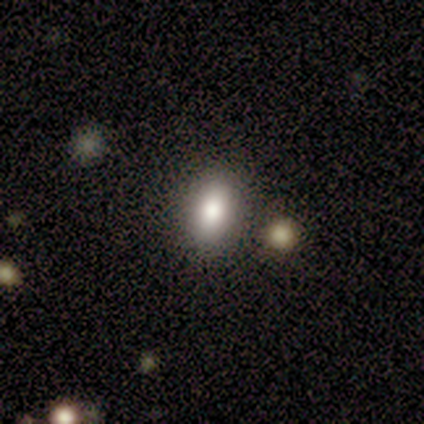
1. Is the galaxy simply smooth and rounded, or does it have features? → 71% smooth, 21% star or artifact, 7% featured or disk.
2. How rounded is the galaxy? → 100% in between, 0% round, 0% cigar-shaped.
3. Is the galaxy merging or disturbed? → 91% none, 9% minor disturbance, 0% major disturbance, 0% merger.